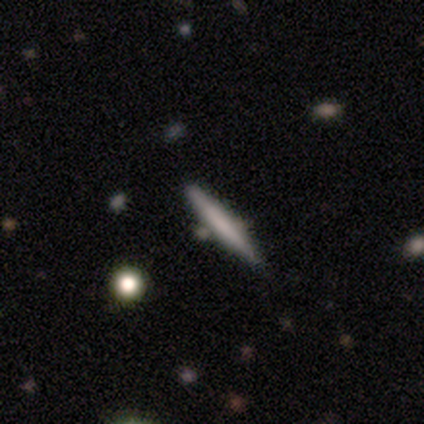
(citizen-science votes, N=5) A featured or disk galaxy (60%) viewed edge-on (67%) with a boxy central bulge (50%, tied with none).

Vote fractions:
- Smooth or featured? featured or disk: 60% / smooth: 40% / star or artifact: 0%
- Edge-on disk? yes: 67% / no: 33%
- Edge-on bulge? boxy: 50% (tied) / none: 50% (tied) / rounded: 0%
- Merging? none: 100% / minor disturbance: 0% / major disturbance: 0% / merger: 0%